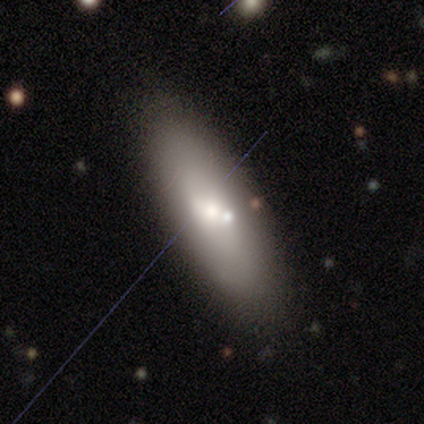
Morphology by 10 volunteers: smooth-or-featured: smooth: 60% | featured or disk: 40% | star or artifact: 0%
  how-rounded: in between: 67% | cigar-shaped: 33% | round: 0%
  merging: none: 90% | merger: 10% | minor disturbance: 0% | major disturbance: 0%